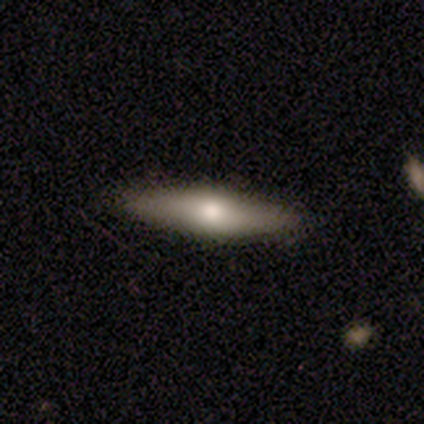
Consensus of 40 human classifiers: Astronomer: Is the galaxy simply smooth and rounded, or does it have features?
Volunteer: featured or disk — 57% (runner-up: smooth, 40%).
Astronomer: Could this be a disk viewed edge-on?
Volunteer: yes — 91%.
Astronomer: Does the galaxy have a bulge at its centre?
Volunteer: rounded — 81%.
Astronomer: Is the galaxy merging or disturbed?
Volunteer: none — 95%.